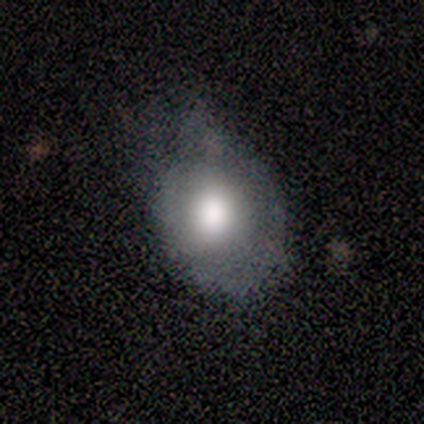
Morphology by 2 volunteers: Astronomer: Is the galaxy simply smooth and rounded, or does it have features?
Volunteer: smooth — 100%.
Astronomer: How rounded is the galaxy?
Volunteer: in between — 100%.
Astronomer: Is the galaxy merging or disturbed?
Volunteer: minor disturbance — 100%.